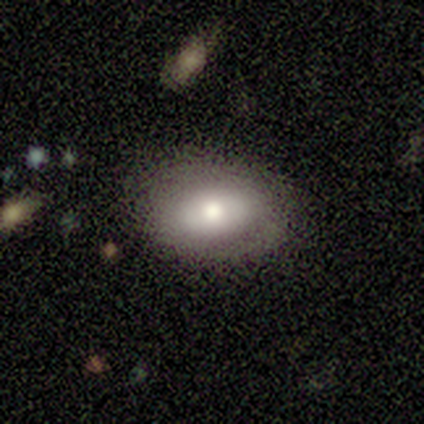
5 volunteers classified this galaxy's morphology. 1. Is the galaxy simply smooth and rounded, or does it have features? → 60% smooth, 40% featured or disk, 0% star or artifact.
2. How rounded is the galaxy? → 100% in between, 0% round, 0% cigar-shaped.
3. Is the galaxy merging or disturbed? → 100% none, 0% minor disturbance, 0% major disturbance, 0% merger.